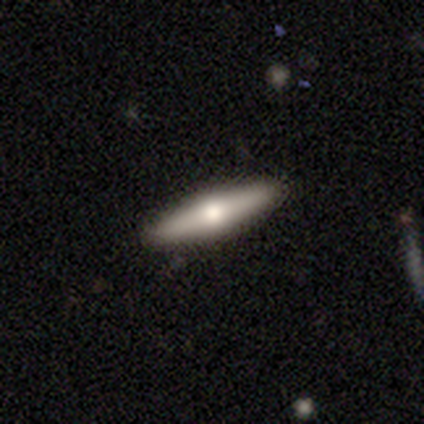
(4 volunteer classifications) This is possibly a smooth galaxy (50%). How rounded: possibly in between (50%, tied with cigar-shaped). Merging: clearly none (100%).